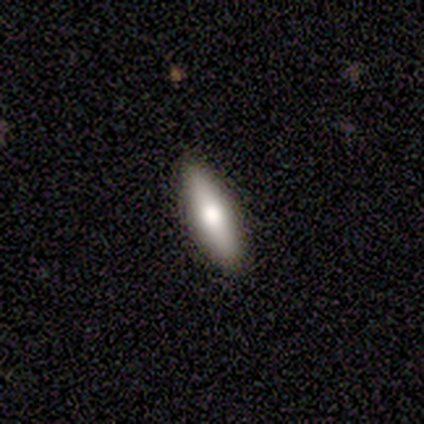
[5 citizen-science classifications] This is clearly a smooth galaxy (100%). How rounded: clearly cigar-shaped (80%). Merging: clearly none (80%).